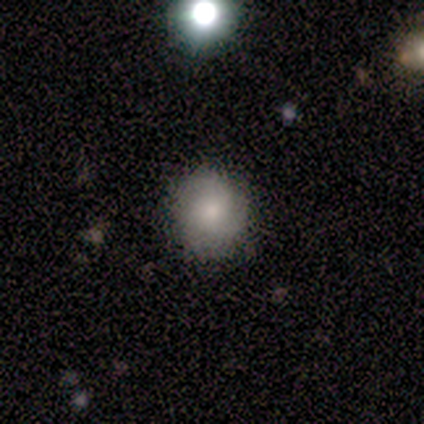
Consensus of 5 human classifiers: This is clearly a smooth galaxy (80%). How rounded: clearly round (100%). Merging: clearly none (100%).